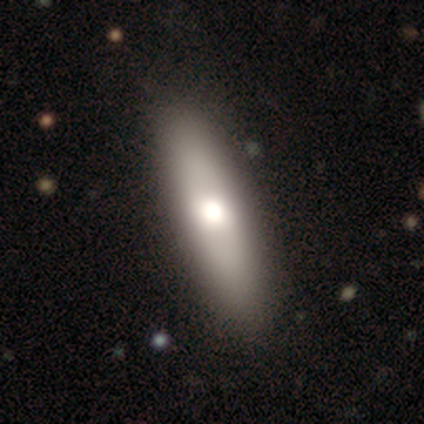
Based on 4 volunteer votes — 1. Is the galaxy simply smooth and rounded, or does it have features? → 75% smooth, 25% featured or disk, 0% star or artifact.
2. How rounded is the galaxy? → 100% cigar-shaped, 0% round, 0% in between.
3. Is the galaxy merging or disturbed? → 100% none, 0% minor disturbance, 0% major disturbance, 0% merger.